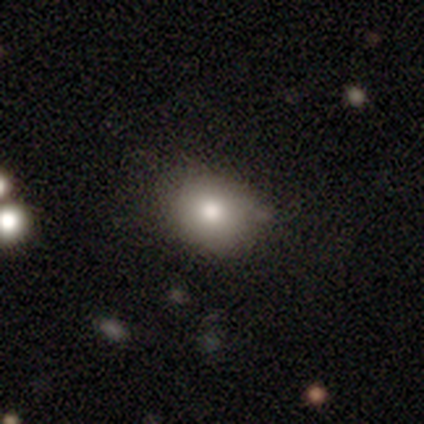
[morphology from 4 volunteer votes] Smooth or featured?
  - smooth: 75% *
  - featured or disk: 25%
  - star or artifact: 0%
How rounded?
  - in between: 67% *
  - round: 33%
  - cigar-shaped: 0%
Merging?
  - none: 75% *
  - minor disturbance: 25%
  - major disturbance: 0%
  - merger: 0%